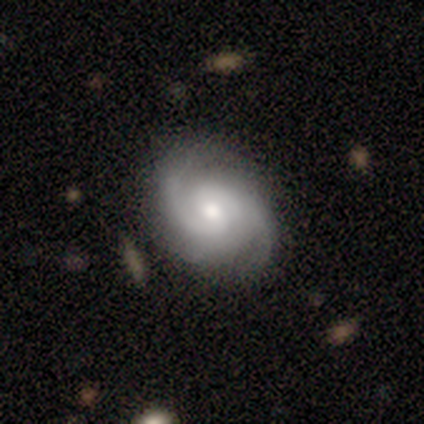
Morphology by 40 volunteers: Q: Smooth or featured?
A: featured or disk (80%); runner-up: smooth (20%)
Q: Edge-on disk?
A: no (97%); runner-up: yes (3%)
Q: Bar?
A: no (74%); runner-up: weak (26%)
Q: Spiral arms?
A: yes (97%); runner-up: no (3%)
Q: Spiral winding?
A: medium (60%); runner-up: tight (30%)
Q: Spiral arm count?
A: 2 (63%); runner-up: 3 (23%)
Q: Bulge size?
A: moderate (61%); runner-up: small (19%)
Q: Merging?
A: none (75%); runner-up: minor disturbance (20%)